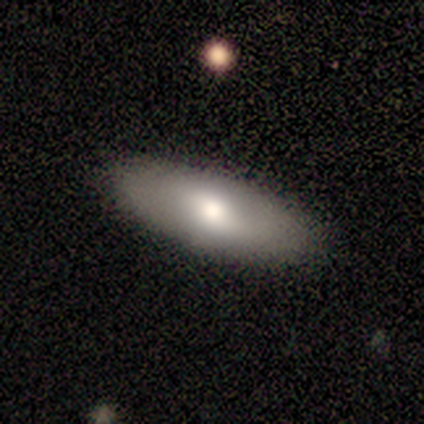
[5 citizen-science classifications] Volunteers were most divided on "smooth or featured": smooth: 80%, featured or disk: 20%, star or artifact: 0%. More confident: how rounded — in between (100%); merging — none (100%).